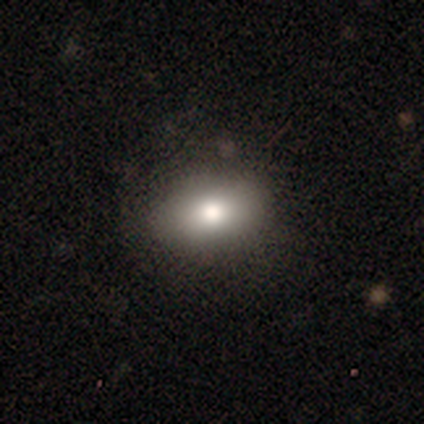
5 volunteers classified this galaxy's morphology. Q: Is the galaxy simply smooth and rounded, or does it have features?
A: smooth — 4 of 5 (80%).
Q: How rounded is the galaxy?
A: in between — 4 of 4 (100%).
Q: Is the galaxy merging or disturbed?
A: major disturbance — 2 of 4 (50%).